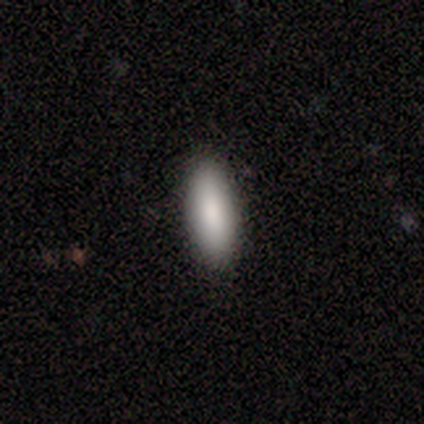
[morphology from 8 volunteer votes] A smooth galaxy with no disk features (88%) that is in between round and cigar-shaped (86%).

Vote fractions:
- Smooth or featured? smooth: 88% / featured or disk: 12% / star or artifact: 0%
- How rounded? in between: 86% / cigar-shaped: 14% / round: 0%
- Merging? none: 88% / minor disturbance: 12% / major disturbance: 0% / merger: 0%